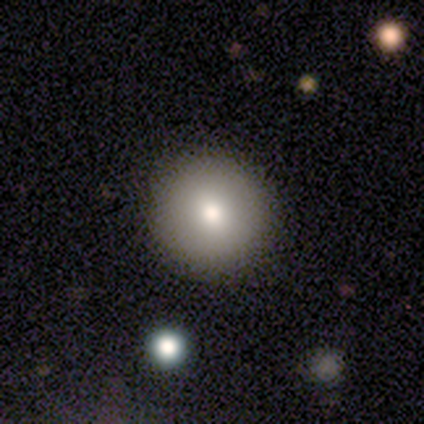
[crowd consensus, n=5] Morphology: type=smooth (100%); roundness=round (80%); merging=none (80%).